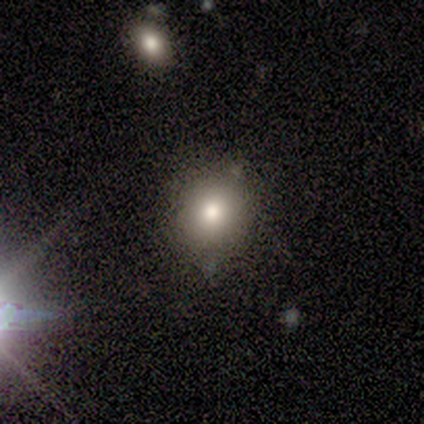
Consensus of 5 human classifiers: smooth-or-featured: smooth: 80% | featured or disk: 20% | star or artifact: 0%
  how-rounded: round: 100% | in between: 0% | cigar-shaped: 0%
  merging: none: 100% | minor disturbance: 0% | major disturbance: 0% | merger: 0%